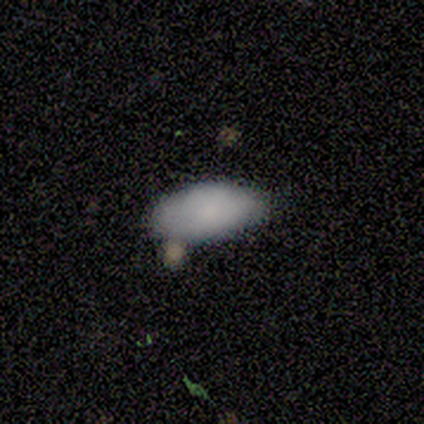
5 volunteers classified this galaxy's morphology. Smooth or featured? smooth (80%)
How rounded? in between (100%)
Merging? none (40%, tied with minor disturbance)